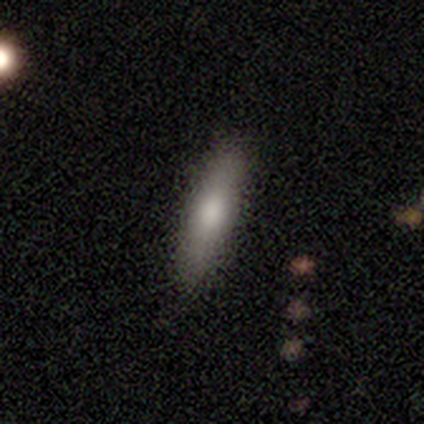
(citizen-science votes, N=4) Morphology: type=smooth (50%, tied with star or artifact); roundness=cigar-shaped (100%); merging=none (50%, tied with minor disturbance).